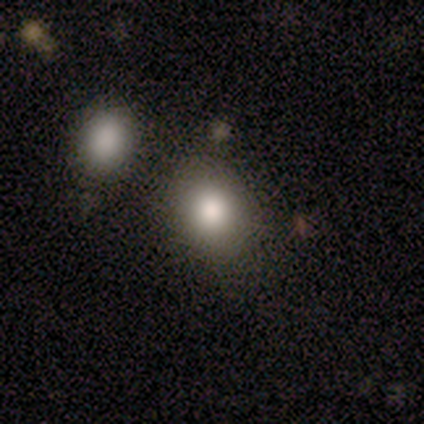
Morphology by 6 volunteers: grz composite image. It shows a smooth galaxy with no disk features (50%) that is in between round and cigar-shaped (67%). Merging: none (40%, tied with merger).